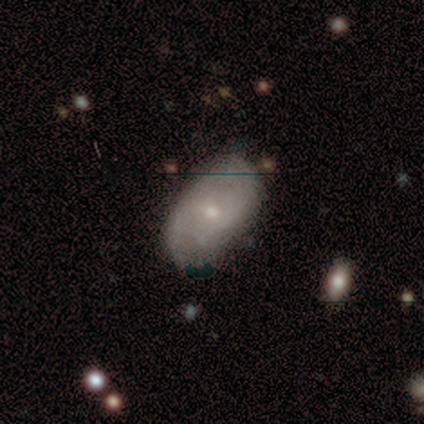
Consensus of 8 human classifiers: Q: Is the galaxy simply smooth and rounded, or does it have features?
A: smooth — 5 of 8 (62%).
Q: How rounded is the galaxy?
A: in between — 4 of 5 (80%).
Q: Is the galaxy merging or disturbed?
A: none — 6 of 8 (75%).